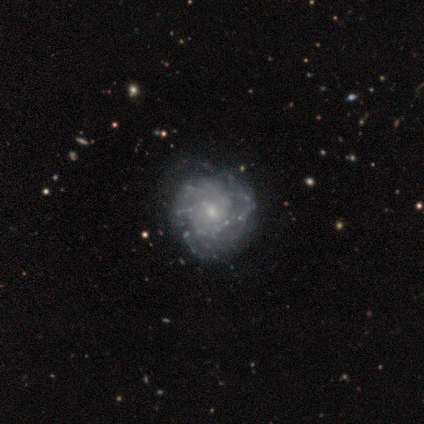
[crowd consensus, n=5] A featured or disk galaxy (60%) with no bar (67%), tight (50%, tied with medium) spiral arms (67%) and a small central bulge (100%).

Vote fractions:
- Smooth or featured? featured or disk: 60% / smooth: 40% / star or artifact: 0%
- Edge-on disk? no: 100% / yes: 0%
- Bar? no: 67% / weak: 33% / strong: 0%
- Spiral arms? yes: 67% / no: 33%
- Spiral winding? tight: 50% (tied) / medium: 50% (tied) / loose: 0%
- Spiral arm count? can't tell: 100% / 1: 0% / 2: 0% / 3: 0% / 4: 0% / more than 4: 0%
- Bulge size? small: 100% / dominant: 0% / large: 0% / moderate: 0% / none: 0%
- Merging? none: 60% / minor disturbance: 40% / major disturbance: 0% / merger: 0%